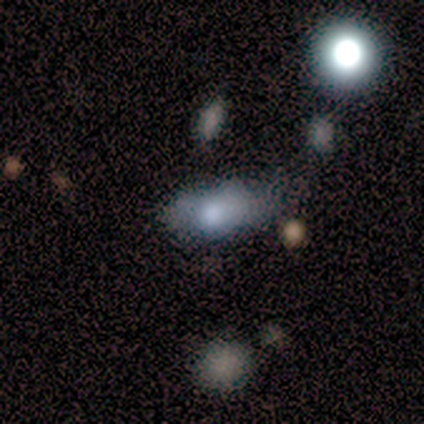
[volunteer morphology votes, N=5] Smooth or featured? 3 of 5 (60%) said smooth. How rounded? 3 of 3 (100%) said in between. Merging? 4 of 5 (80%) said minor disturbance.